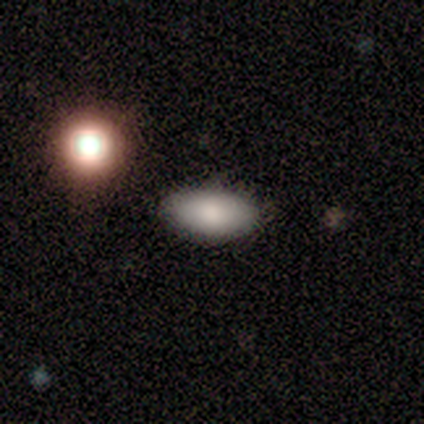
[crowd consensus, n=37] This is likely a smooth galaxy (78%). How rounded: clearly in between (97%). Merging: clearly none (89%).